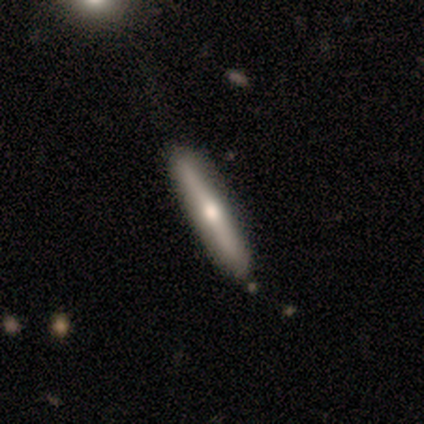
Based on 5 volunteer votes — smooth 40% (tied), featured or disk 40% (tied), star or artifact 20%. Down the decision tree: how rounded — in between (50%, tied with cigar-shaped); merging — none (75%).